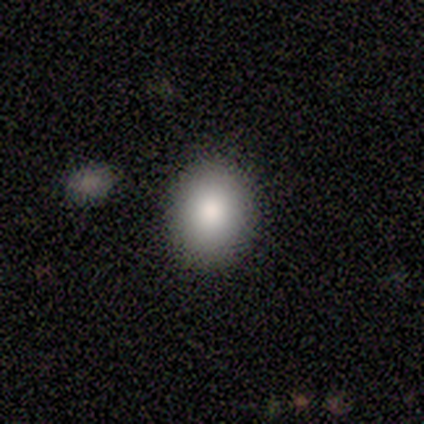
Volunteers were most divided on "how rounded": in between: 56%, round: 44%, cigar-shaped: 0%. More confident: smooth or featured — smooth (100%); merging — none (89%).